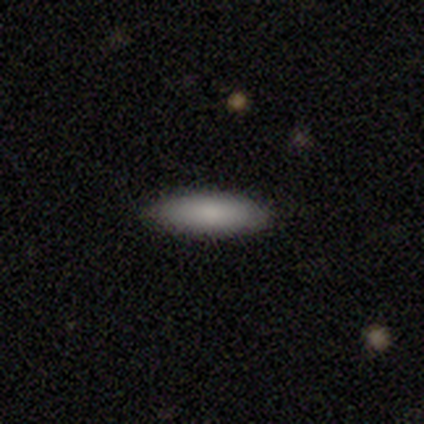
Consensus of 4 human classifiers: Smooth or featured? smooth (100%)
How rounded? in between (50%, tied with cigar-shaped)
Merging? none (100%)